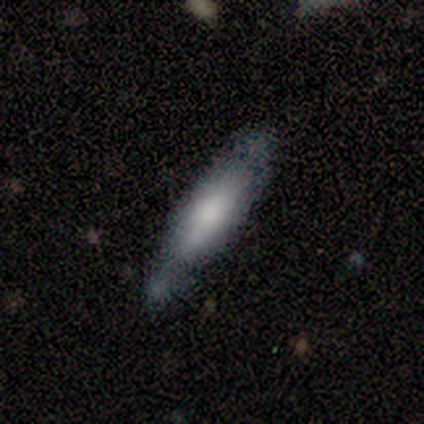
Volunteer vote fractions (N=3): This is clearly a smooth galaxy (100%). How rounded: likely cigar-shaped (67%). Merging: clearly none (100%).